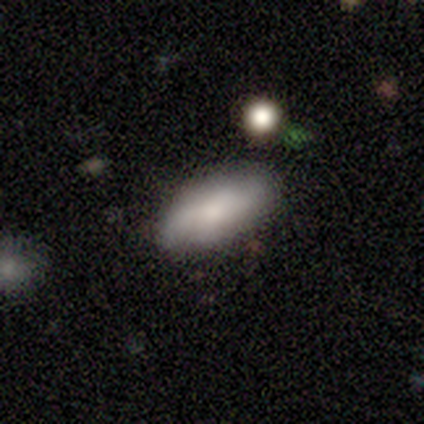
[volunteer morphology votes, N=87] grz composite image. It shows a smooth galaxy with no disk features (69%) that is in between round and cigar-shaped (88%). Merging: none (77%).